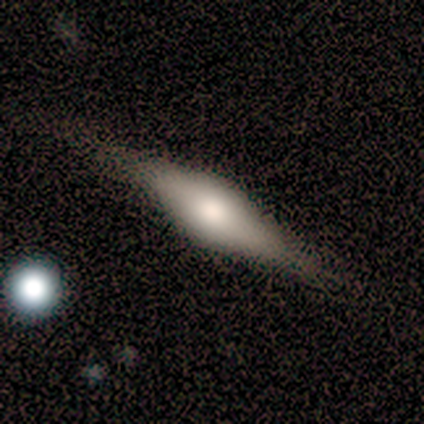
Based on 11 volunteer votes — Overall: featured or disk (73%). Edge-on disk: yes (100%). Edge-on bulge: rounded (75%). Merging: none (73%).